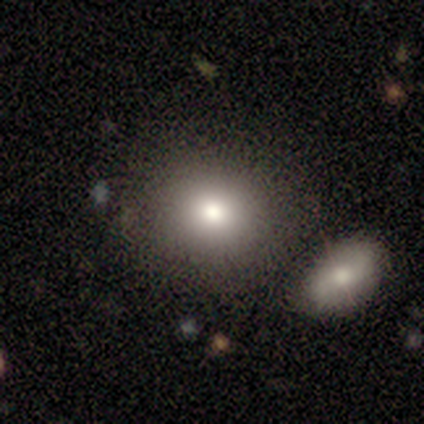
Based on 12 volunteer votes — Smooth or featured? smooth (75%)
How rounded? round (89%)
Merging? none (70%)